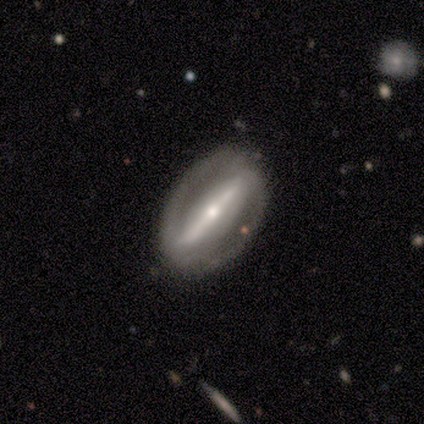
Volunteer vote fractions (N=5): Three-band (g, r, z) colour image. It shows a featured or disk galaxy (100%) with a strong bar (100%), no spiral arms (60%) and a small central bulge (80%). Merging: none (100%).